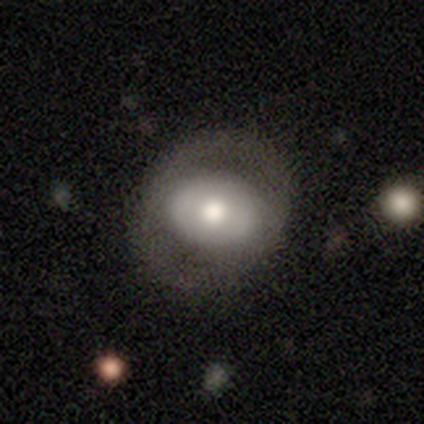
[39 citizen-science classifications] A featured or disk galaxy (51%) with no bar (75%), no spiral arms (100%) and a moderate central bulge (69%).

Vote fractions:
- Smooth or featured? featured or disk: 51% / smooth: 46% / star or artifact: 3%
- Edge-on disk? no: 80% / yes: 20%
- Bar? no: 75% / strong: 12% / weak: 12%
- Spiral arms? no: 100% / yes: 0%
- Bulge size? moderate: 69% / large: 25% / small: 6% / dominant: 0% / none: 0%
- Merging? none: 42% / minor disturbance: 11% / major disturbance: 8% / merger: 5%